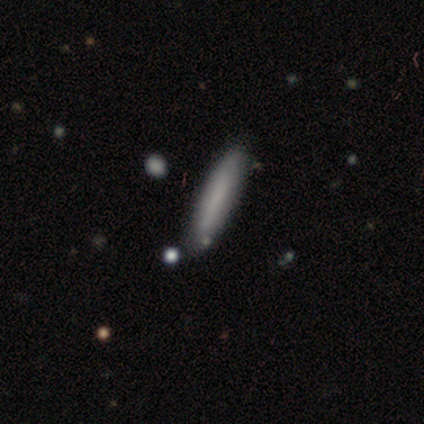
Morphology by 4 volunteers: Overall: smooth (75%). How rounded: cigar-shaped (100%). Merging: none (50%, tied with minor disturbance).